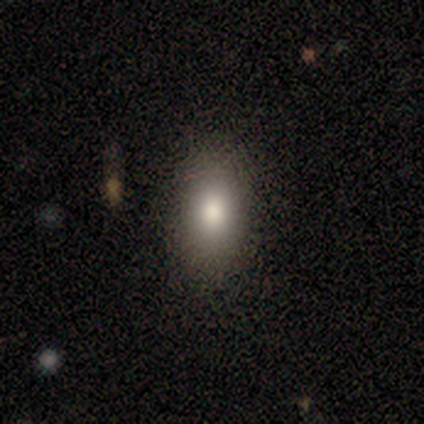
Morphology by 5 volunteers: smooth 100%, featured or disk 0%, star or artifact 0%. Down the decision tree: how rounded — in between (80%); merging — none (80%).